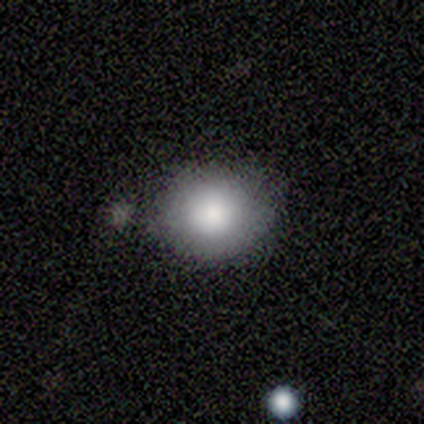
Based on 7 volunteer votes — This appears to be a smooth galaxy with no disk features (71%) that is round (60%). Merging: none (67%).